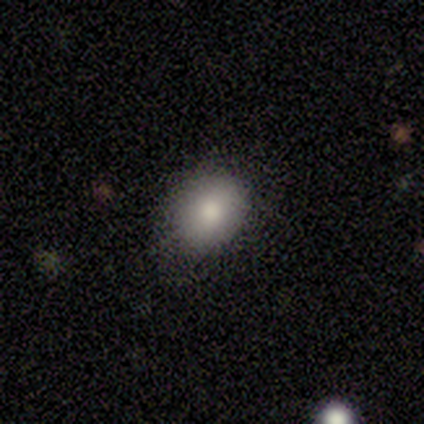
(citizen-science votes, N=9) Volunteers were most divided on "how rounded": round: 57%, in between: 43%, cigar-shaped: 0%. More confident: smooth or featured — smooth (78%); merging — none (57%).